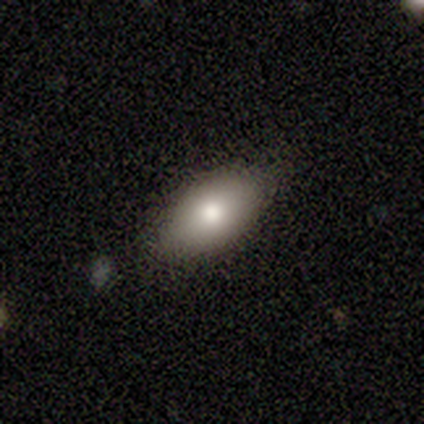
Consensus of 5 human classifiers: A smooth galaxy with no disk features (100%) that is in between round and cigar-shaped (100%).

Vote fractions:
- Smooth or featured? smooth: 100% / featured or disk: 0% / star or artifact: 0%
- How rounded? in between: 100% / round: 0% / cigar-shaped: 0%
- Merging? none: 100% / minor disturbance: 0% / major disturbance: 0% / merger: 0%